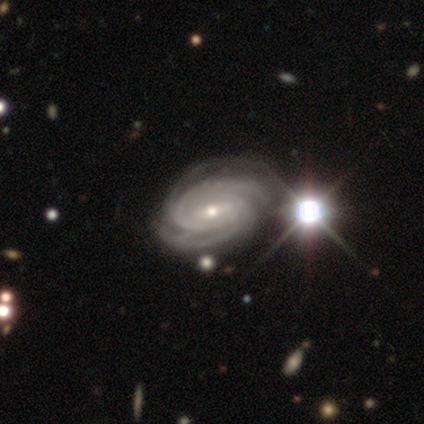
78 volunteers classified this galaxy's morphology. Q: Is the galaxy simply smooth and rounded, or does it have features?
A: featured or disk — 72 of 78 (92%).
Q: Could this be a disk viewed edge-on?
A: no — 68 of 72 (94%).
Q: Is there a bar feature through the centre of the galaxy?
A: weak — 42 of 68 (62%).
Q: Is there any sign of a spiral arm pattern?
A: yes — 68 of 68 (100%).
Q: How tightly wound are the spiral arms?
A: tight — 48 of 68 (71%).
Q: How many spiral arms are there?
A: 2 — 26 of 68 (38%).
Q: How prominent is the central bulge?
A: small — 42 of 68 (62%).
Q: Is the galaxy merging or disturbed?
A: none — 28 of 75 (37%).